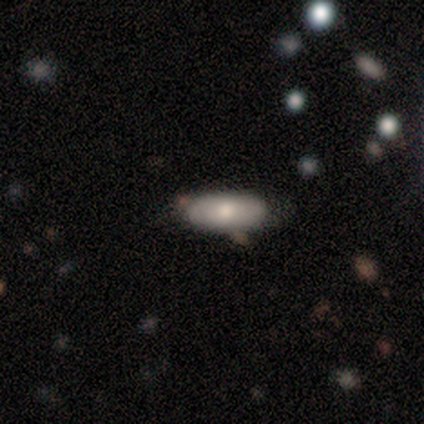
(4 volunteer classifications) smooth-or-featured: smooth: 50% (tied) | star or artifact: 50% (tied) | featured or disk: 0%
  how-rounded: in between: 100% | round: 0% | cigar-shaped: 0%
  merging: none: 50% (tied) | minor disturbance: 50% (tied) | major disturbance: 0% | merger: 0%